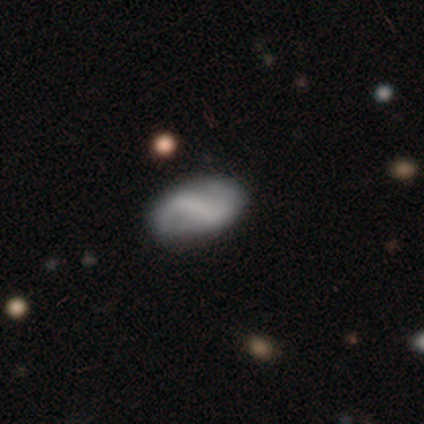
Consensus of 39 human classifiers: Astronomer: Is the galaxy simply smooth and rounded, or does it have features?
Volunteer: featured or disk — 56% (runner-up: smooth, 33%).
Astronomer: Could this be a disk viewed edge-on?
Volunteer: no — 95%.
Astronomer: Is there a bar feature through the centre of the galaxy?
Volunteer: strong — 43% (runner-up: weak, 38%).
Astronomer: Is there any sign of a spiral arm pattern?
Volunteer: yes — 86%.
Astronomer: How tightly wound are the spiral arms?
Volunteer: loose — 61%.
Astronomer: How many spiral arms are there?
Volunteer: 2 — 89%.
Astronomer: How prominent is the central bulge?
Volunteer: none — 90%.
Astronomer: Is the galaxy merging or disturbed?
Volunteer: none — 83%.